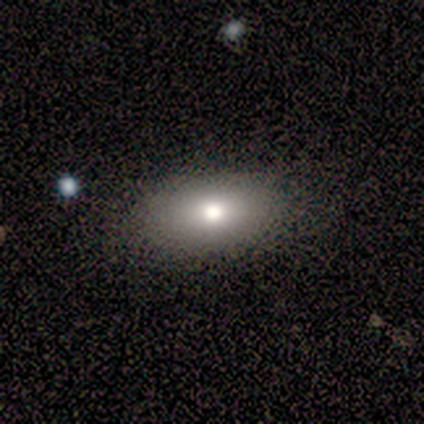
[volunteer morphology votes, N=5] Volunteers were most divided on "merging": none: 80%, minor disturbance: 20%, major disturbance: 0%, merger: 0%. More confident: smooth or featured — smooth (100%); how rounded — in between (100%).